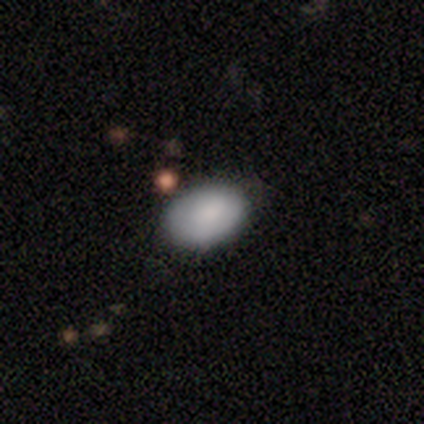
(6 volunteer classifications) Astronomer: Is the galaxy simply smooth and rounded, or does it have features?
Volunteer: smooth — 100%.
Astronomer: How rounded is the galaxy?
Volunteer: in between — 83%.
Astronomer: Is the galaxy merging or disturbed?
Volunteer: none — 83%.